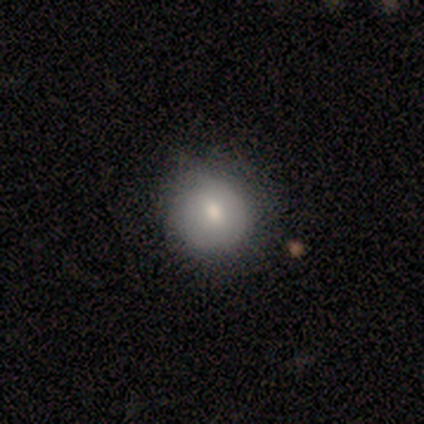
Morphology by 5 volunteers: Smooth or featured: smooth — 80% (featured or disk — 20%)
How rounded: round — 75% (in between — 25%)
Merging: none — 60% (minor disturbance — 40%)